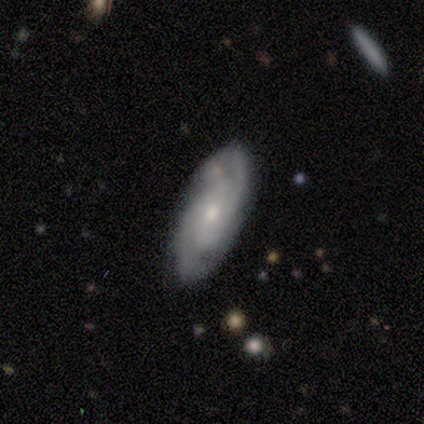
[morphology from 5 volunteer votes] A featured or disk galaxy (80%) with no bar (75%), 2 (75%) medium (75%) spiral arms (100%) and a small central bulge (100%). Merging: none (60%).